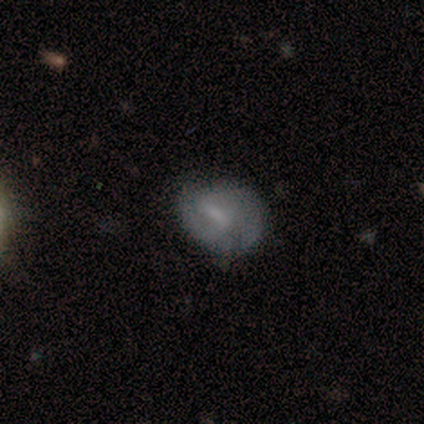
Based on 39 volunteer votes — Morphology: type=featured or disk (67%); edge-on=no (96%); bar=weak (48%); spiral arms=yes (80%); winding=tight (45%, tied with medium); arm count=2 (95%); bulge=none (56%); merging=none (56%).